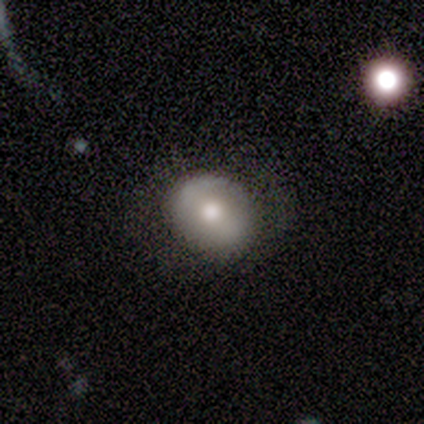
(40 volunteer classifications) smooth-or-featured: smooth: 50% | featured or disk: 48% | star or artifact: 2%
  how-rounded: round: 80% | in between: 20% | cigar-shaped: 0%
  merging: none: 77% | minor disturbance: 18% | major disturbance: 5% | merger: 0%